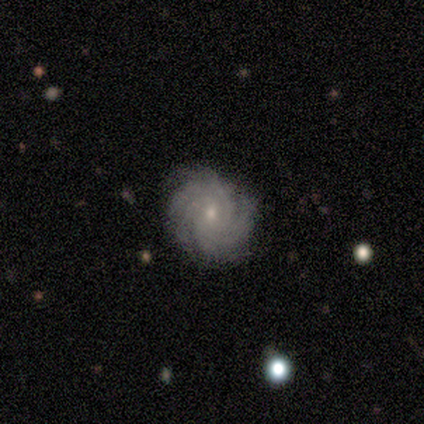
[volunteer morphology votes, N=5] featured or disk 100%, smooth 0%, star or artifact 0%. Down the decision tree: edge-on disk — no (100%); bar — no (100%); spiral arms — yes (100%); spiral arm count — more than 4 (60%); spiral winding — tight (60%); bulge size — small (60%); merging — none (80%).